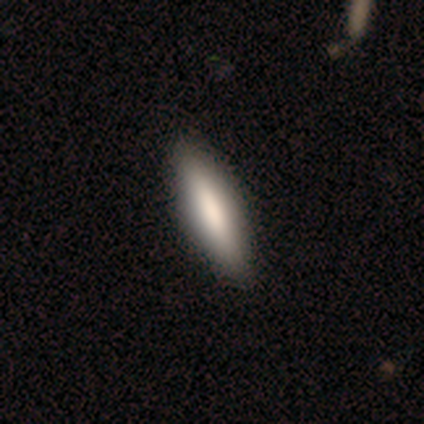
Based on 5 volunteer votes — A smooth galaxy with no disk features (80%) that is in between round and cigar-shaped (75%).

Vote fractions:
- Smooth or featured? smooth: 80% / featured or disk: 20% / star or artifact: 0%
- How rounded? in between: 75% / cigar-shaped: 25% / round: 0%
- Merging? none: 60% / minor disturbance: 40% / major disturbance: 0% / merger: 0%